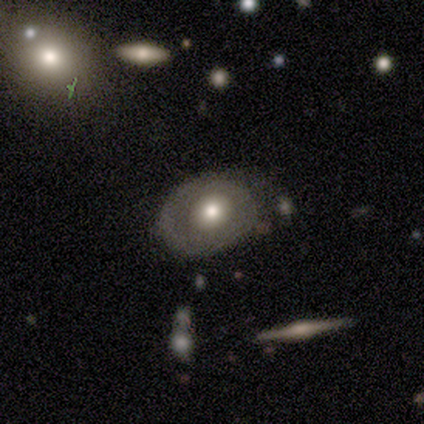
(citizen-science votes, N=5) Smooth or featured? 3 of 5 (60%) said featured or disk. Edge-on disk? 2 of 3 (67%) said no. Bar? 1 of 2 (50%, tied with no) said weak. Spiral arms? 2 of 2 (100%) said no. Bulge size? 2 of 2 (100%) said moderate. Merging? 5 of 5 (100%) said none.